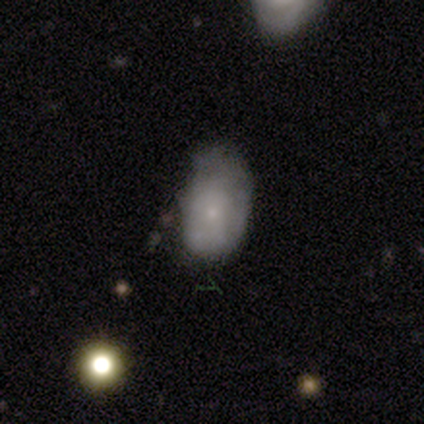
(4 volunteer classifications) Smooth or featured? 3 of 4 (75%) said smooth. How rounded? 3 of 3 (100%) said in between. Merging? 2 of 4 (50%) said minor disturbance.